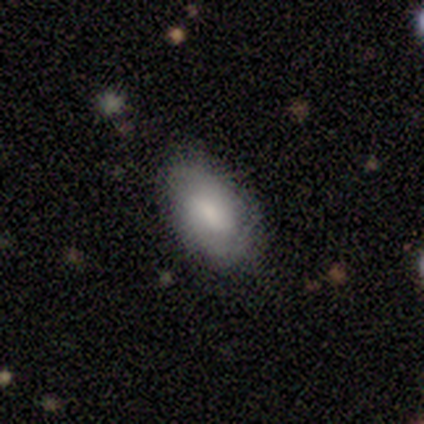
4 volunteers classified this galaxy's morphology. smooth-or-featured: smooth: 50% (tied) | featured or disk: 50% (tied) | star or artifact: 0%
  how-rounded: in between: 100% | round: 0% | cigar-shaped: 0%
  merging: none: 50% | minor disturbance: 25% | major disturbance: 25% | merger: 0%